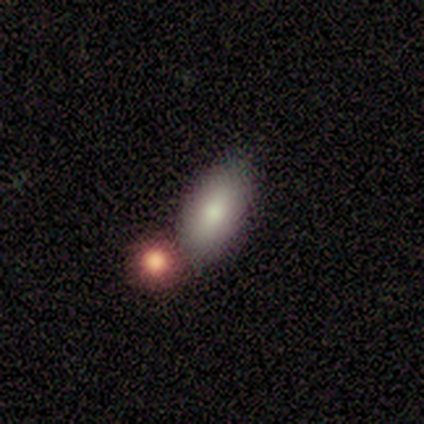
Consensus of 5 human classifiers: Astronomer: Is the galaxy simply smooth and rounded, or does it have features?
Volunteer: smooth — 100%.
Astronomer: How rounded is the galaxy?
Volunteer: in between — 100%.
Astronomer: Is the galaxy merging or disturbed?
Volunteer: minor disturbance — 60% (runner-up: none, 40%).